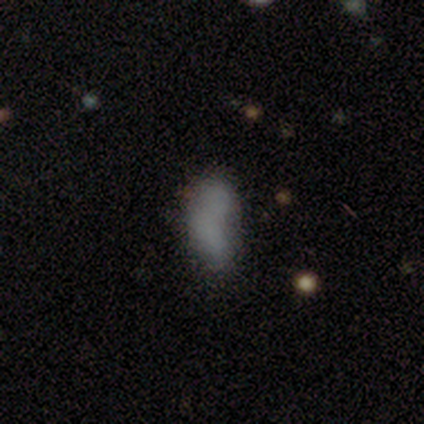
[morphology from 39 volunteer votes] smooth-or-featured: smooth: 69% | featured or disk: 15% | star or artifact: 15%
  how-rounded: in between: 78% | cigar-shaped: 19% | round: 4%
  merging: none: 33% | minor disturbance: 24% | merger: 24% | major disturbance: 18%